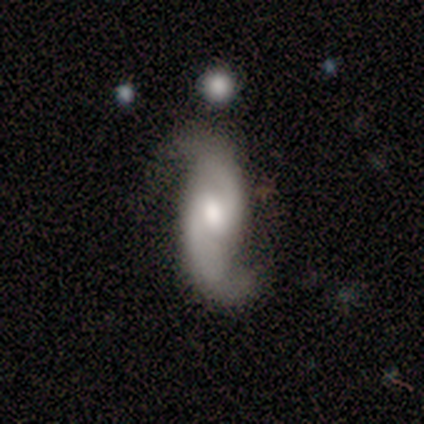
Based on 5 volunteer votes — Q: Smooth or featured?
A: featured or disk (100%)
Q: Edge-on disk?
A: no (100%)
Q: Bar?
A: weak (40%); tied with: no (40%)
Q: Spiral arms?
A: yes (100%)
Q: Spiral winding?
A: loose (80%); runner-up: medium (20%)
Q: Spiral arm count?
A: 2 (100%)
Q: Bulge size?
A: moderate (60%); runner-up: large (20%)
Q: Merging?
A: minor disturbance (60%); runner-up: none (40%)